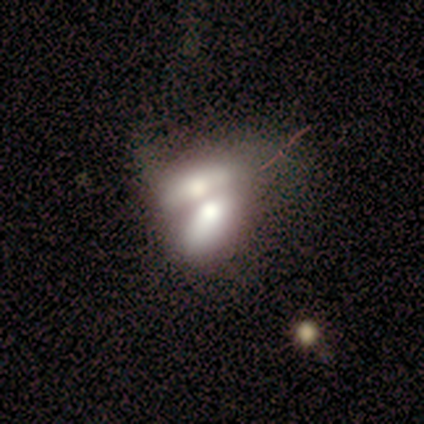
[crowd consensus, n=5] This appears to be a smooth galaxy with no disk features (60%) that is cigar-shaped (67%). Merging: merger (100%).